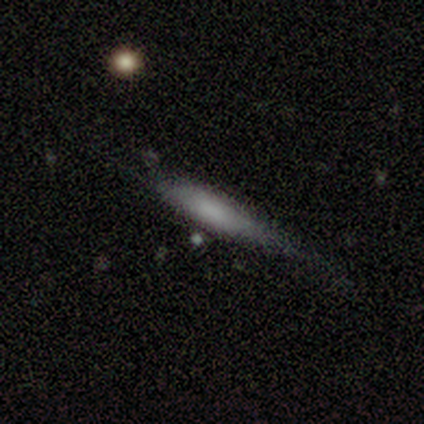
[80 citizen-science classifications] A smooth galaxy with no disk features (72%) that is cigar-shaped (76%).

Vote fractions:
- Smooth or featured? smooth: 72% / featured or disk: 25% / star or artifact: 2%
- How rounded? cigar-shaped: 76% / in between: 22% / round: 2%
- Merging? minor disturbance: 23% / none: 18% / major disturbance: 8% / merger: 3%